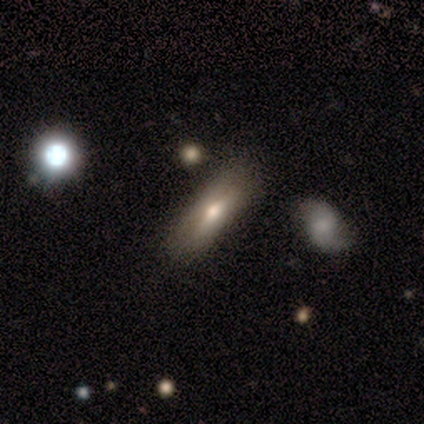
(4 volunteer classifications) smooth 50% (tied), featured or disk 50% (tied), star or artifact 0%. Down the decision tree: how rounded — in between (50%, tied with cigar-shaped); merging — none (100%).